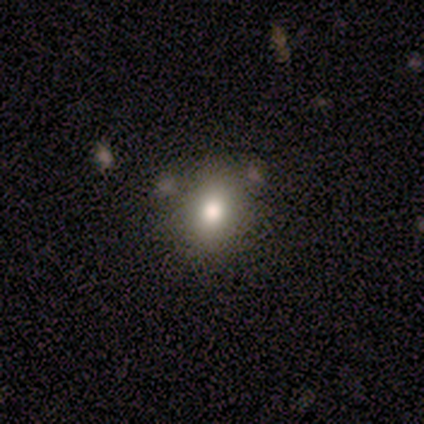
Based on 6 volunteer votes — smooth-or-featured: smooth: 100% | featured or disk: 0% | star or artifact: 0%
  how-rounded: in between: 83% | round: 17% | cigar-shaped: 0%
  merging: none: 100% | minor disturbance: 0% | major disturbance: 0% | merger: 0%